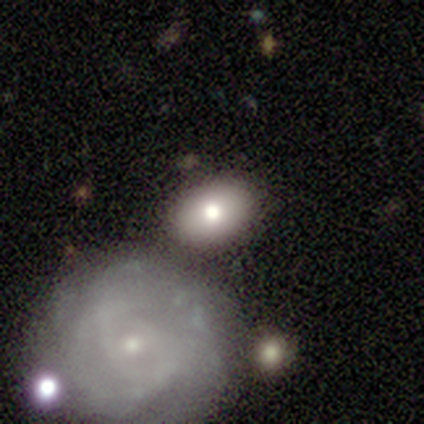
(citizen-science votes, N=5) Overall: smooth (60%; featured or disk 20%). How rounded: in between (100%). Merging: none (75%).